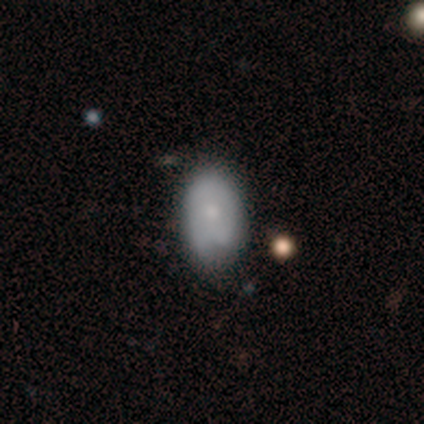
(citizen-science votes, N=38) This is likely a smooth galaxy (68%). How rounded: clearly in between (85%). Merging: marginally none (34%).